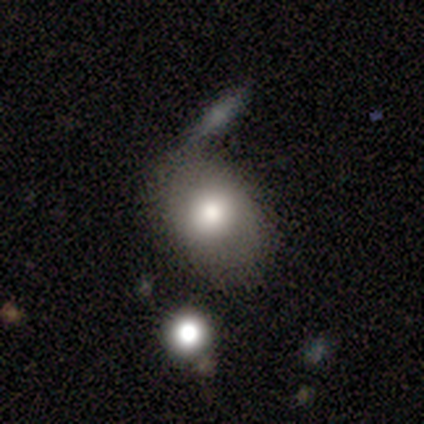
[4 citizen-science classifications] This is likely a smooth galaxy (75%). How rounded: clearly in between (100%). Merging: possibly minor disturbance (50%).